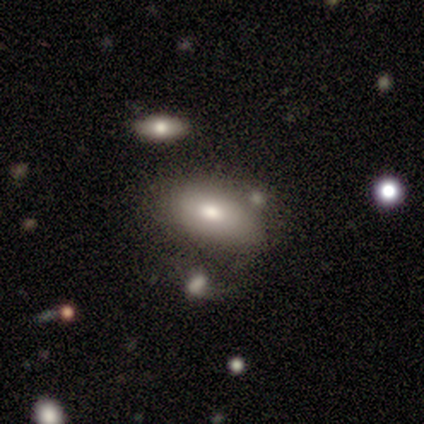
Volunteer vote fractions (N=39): Q: Smooth or featured?
A: smooth (56%); runner-up: featured or disk (23%)
Q: How rounded?
A: in between (91%); runner-up: round (9%)
Q: Merging?
A: none (55%); runner-up: minor disturbance (26%)